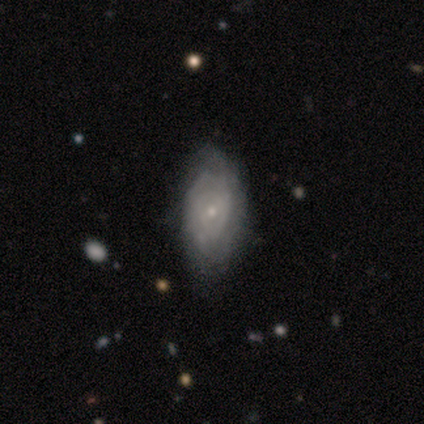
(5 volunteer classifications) smooth-or-featured: featured or disk: 80% | smooth: 20% | star or artifact: 0%
  disk-edge-on: no: 100% | yes: 0%
    bar: no: 100% | strong: 0% | weak: 0%
    has-spiral-arms: yes: 75% | no: 25%
      spiral-winding: tight: 100% | medium: 0% | loose: 0%
      spiral-arm-count: can't tell: 67% | 1: 33% | 2: 0% | 3: 0% | 4: 0% | more than 4: 0%
    bulge-size: small: 100% | dominant: 0% | large: 0% | moderate: 0% | none: 0%
  merging: minor disturbance: 60% | none: 40% | major disturbance: 0% | merger: 0%